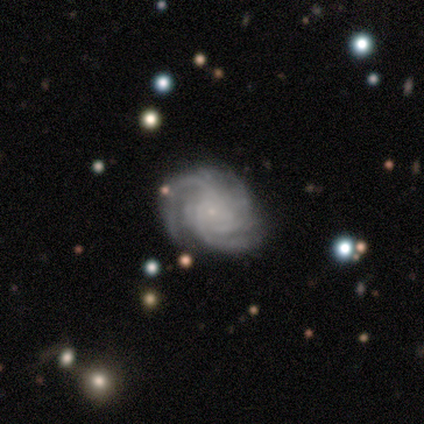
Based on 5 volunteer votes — Volunteers were most divided on "spiral winding": medium: 75%, tight: 25%, loose: 0%. More confident: edge-on disk — no (100%); bar — no (100%); spiral arms — yes (100%); bulge size — small (100%); merging — none (100%); smooth or featured — featured or disk (80%); spiral arm count — 3 (75%).